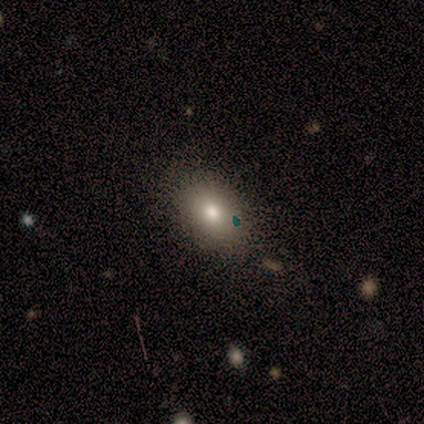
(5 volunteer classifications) Smooth or featured?
  - smooth: 80% *
  - star or artifact: 20%
  - featured or disk: 0%
How rounded?
  - in between: 100% *
  - round: 0%
  - cigar-shaped: 0%
Merging?
  - none: 100% *
  - minor disturbance: 0%
  - major disturbance: 0%
  - merger: 0%